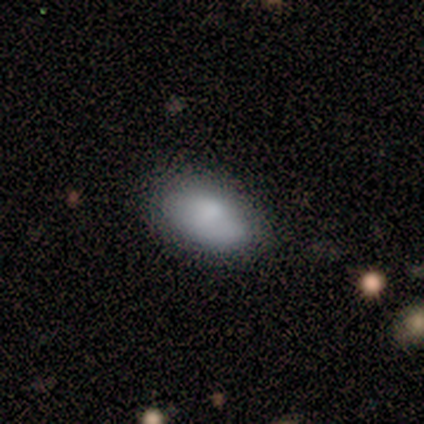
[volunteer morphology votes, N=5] This appears to be a smooth galaxy with no disk features (100%) that is in between round and cigar-shaped (100%). Merging: none (60%).